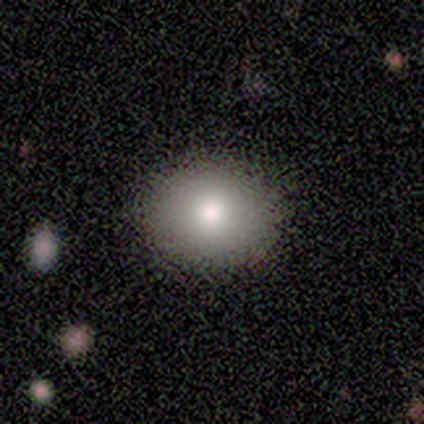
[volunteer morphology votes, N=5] A smooth galaxy with no disk features (80%) that is round (75%).

Vote fractions:
- Smooth or featured? smooth: 80% / star or artifact: 20% / featured or disk: 0%
- How rounded? round: 75% / in between: 25% / cigar-shaped: 0%
- Merging? none: 100% / minor disturbance: 0% / major disturbance: 0% / merger: 0%